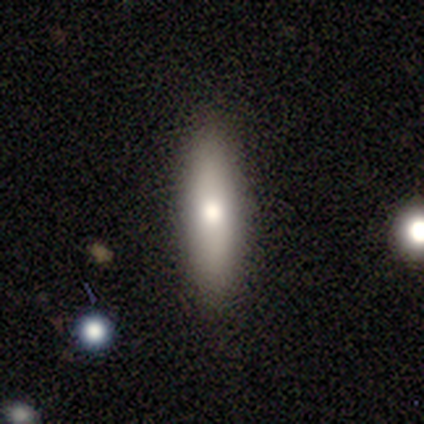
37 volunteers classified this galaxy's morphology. smooth-or-featured: smooth: 68% | featured or disk: 24% | star or artifact: 8%
  how-rounded: cigar-shaped: 76% | in between: 24% | round: 0%
  merging: none: 88% | minor disturbance: 9% | major disturbance: 3% | merger: 0%